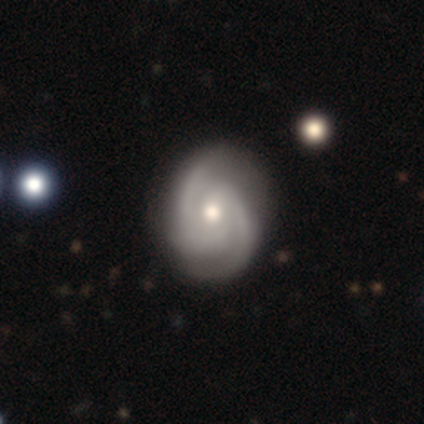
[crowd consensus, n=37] Smooth or featured? 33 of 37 (89%) said featured or disk. Edge-on disk? 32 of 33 (97%) said no. Bar? 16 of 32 (50%) said weak. Spiral arms? 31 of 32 (97%) said yes. Spiral winding? 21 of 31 (68%) said tight. Spiral arm count? 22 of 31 (71%) said 2. Bulge size? 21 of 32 (66%) said moderate. Merging? 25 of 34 (74%) said none.